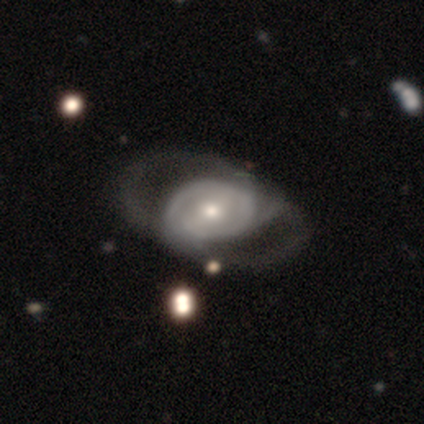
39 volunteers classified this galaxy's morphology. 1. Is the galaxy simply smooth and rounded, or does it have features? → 90% featured or disk, 10% smooth, 0% star or artifact.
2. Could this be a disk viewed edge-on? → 94% no, 6% yes.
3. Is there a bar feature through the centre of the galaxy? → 48% weak, 33% no, 18% strong.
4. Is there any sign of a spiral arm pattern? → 67% yes, 33% no.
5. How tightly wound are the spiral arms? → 45% tight, 32% medium, 23% loose.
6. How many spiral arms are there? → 64% 2, 23% can't tell, 9% 1, 5% 3, 0% 4, 0% more than 4.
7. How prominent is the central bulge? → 52% moderate, 33% small, 6% dominant, 6% large, 3% none.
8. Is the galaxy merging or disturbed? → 26% none (tied), 26% major disturbance (tied), 15% minor disturbance, 10% merger.